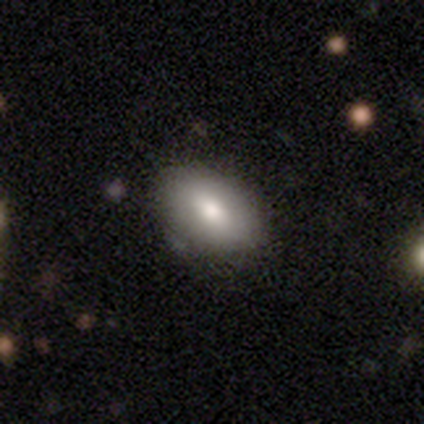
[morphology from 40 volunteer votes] Overall: smooth (78%). How rounded: in between (90%). Merging: none (61%).